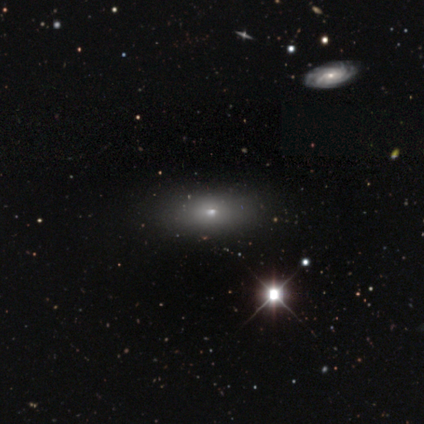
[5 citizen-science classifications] smooth_or_featured: smooth (p=0.60) [alt: star or artifact p=0.40]
how_rounded: in between (p=0.67) [alt: cigar-shaped p=0.33]
merging: none (p=0.67) [alt: minor disturbance p=0.33]